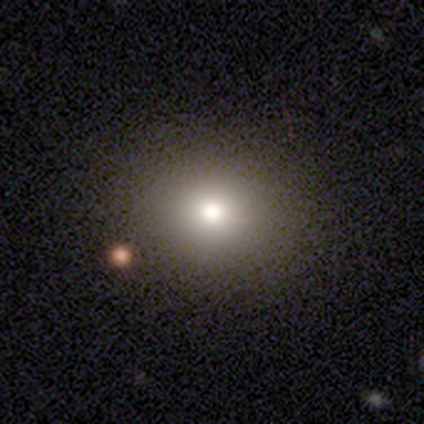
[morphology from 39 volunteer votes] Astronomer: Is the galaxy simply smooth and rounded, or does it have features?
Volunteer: smooth — 77%.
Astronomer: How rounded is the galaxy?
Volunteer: round — 67%.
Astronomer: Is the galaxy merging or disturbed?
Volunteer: none — 81%.